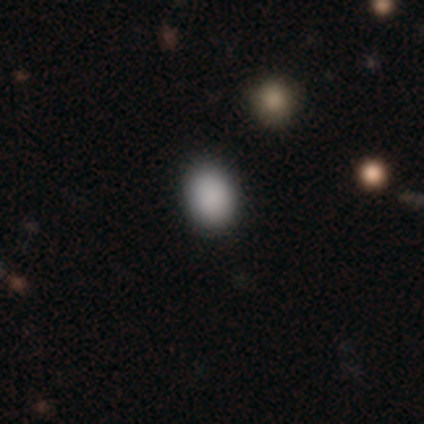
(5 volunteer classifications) This is likely a smooth galaxy (60%). How rounded: likely in between (67%). Merging: clearly none (100%).